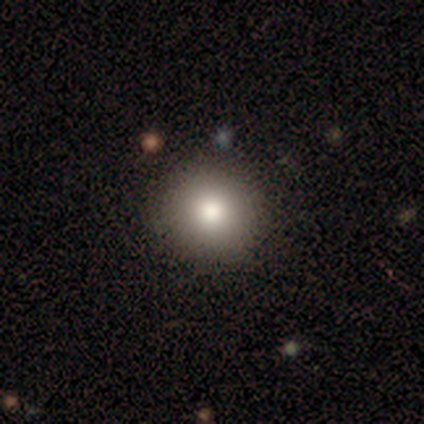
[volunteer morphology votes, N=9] smooth_or_featured: smooth (p=0.78) [alt: star or artifact p=0.22]
how_rounded: round (p=1.00)
merging: none (p=1.00)